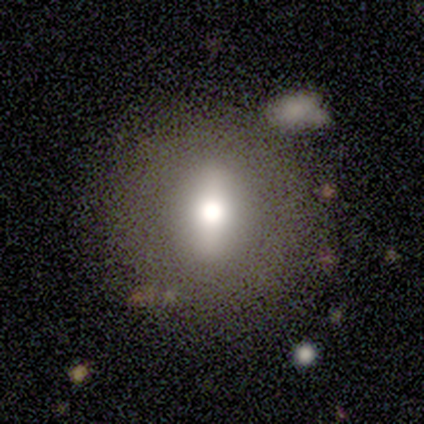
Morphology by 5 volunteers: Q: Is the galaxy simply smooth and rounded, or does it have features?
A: smooth — 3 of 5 (60%).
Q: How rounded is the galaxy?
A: round — 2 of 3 (67%).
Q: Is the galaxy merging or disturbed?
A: none — 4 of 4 (100%).